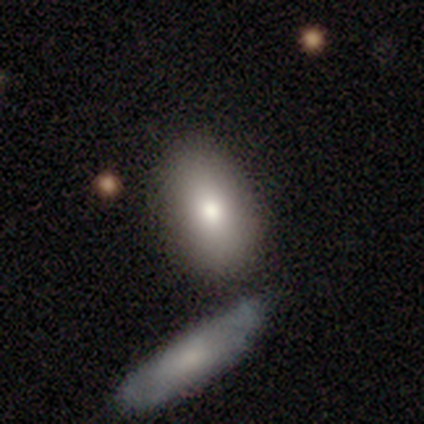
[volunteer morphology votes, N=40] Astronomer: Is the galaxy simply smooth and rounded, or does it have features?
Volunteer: smooth — 72%.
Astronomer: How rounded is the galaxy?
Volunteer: in between — 90%.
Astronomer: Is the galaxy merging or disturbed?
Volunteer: none — 67%.